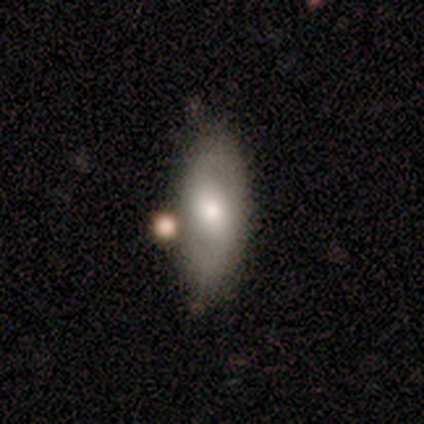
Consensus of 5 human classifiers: Q: Smooth or featured?
A: featured or disk (60%); runner-up: smooth (40%)
Q: Edge-on disk?
A: no (100%)
Q: Bar?
A: no (67%); runner-up: strong (33%)
Q: Spiral arms?
A: no (67%); runner-up: yes (33%)
Q: Bulge size?
A: moderate (100%)
Q: Merging?
A: none (80%); runner-up: minor disturbance (20%)